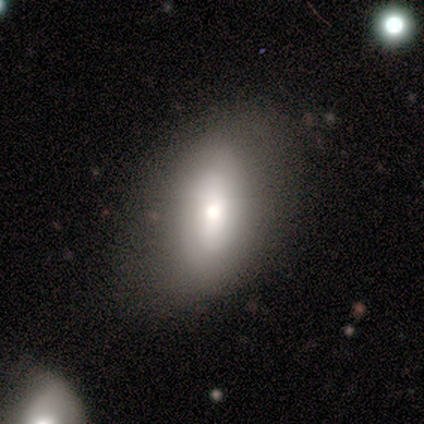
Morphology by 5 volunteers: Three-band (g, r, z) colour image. It shows a smooth galaxy with no disk features (40%, tied with featured or disk) that is in between round and cigar-shaped (100%). Merging: none (50%, tied with minor disturbance).